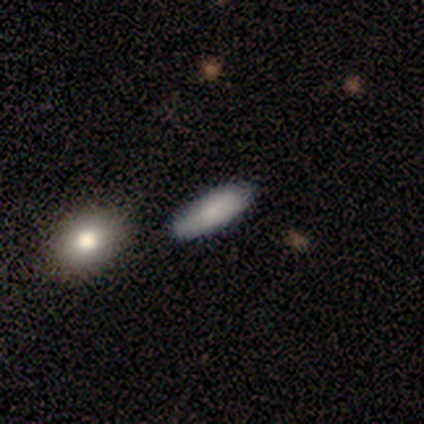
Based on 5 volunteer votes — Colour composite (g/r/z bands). It shows a smooth galaxy with no disk features (100%) that is cigar-shaped (60%). Merging: none (80%).